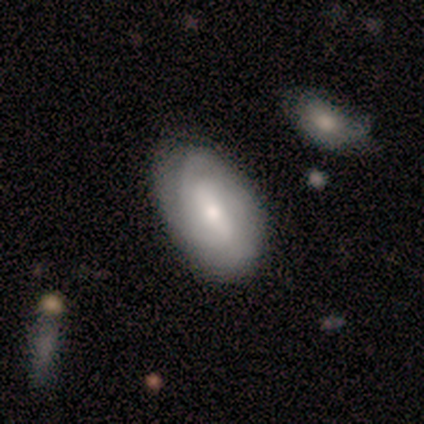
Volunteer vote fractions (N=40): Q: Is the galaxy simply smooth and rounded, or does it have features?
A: featured or disk — 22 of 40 (55%).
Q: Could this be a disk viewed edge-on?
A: no — 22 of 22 (100%).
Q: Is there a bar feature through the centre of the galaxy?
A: weak — 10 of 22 (45%).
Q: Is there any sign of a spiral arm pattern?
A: yes — 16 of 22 (73%).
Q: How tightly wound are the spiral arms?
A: tight — 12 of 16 (75%).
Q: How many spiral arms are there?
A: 2 — 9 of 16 (56%).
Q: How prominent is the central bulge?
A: moderate — 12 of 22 (55%).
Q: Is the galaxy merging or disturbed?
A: none — 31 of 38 (82%).